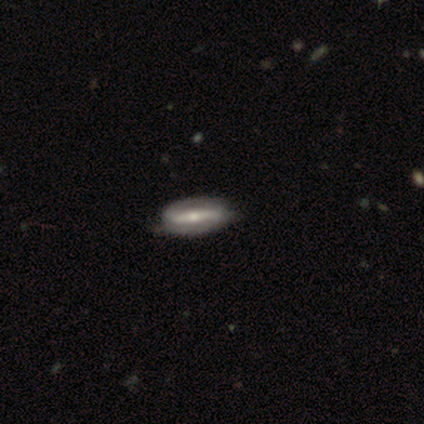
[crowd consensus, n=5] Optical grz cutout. It shows a featured or disk galaxy (60%) with a strong bar (100%), 2 (100%) medium (50%, tied with loose) spiral arms (100%) and a small central bulge (100%). Merging: none (75%).